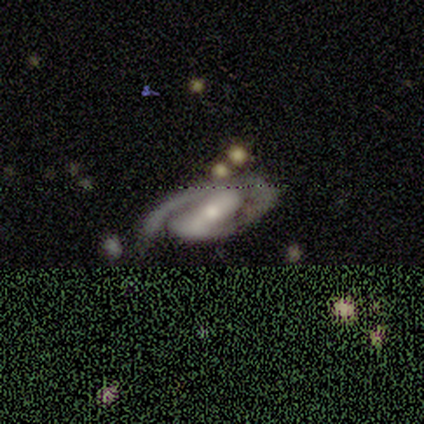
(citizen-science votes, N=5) smooth_or_featured: featured or disk (p=1.00)
disk_edge_on: no (p=1.00)
bar: strong (p=0.80) [alt: weak p=0.20]
has_spiral_arms: yes (p=1.00)
spiral_winding: medium (p=0.60) [alt: tight p=0.40]
spiral_arm_count: 2 (p=1.00)
bulge_size: moderate (p=0.60) [alt: small p=0.40]
merging: none (p=0.60) [alt: minor disturbance p=0.20]